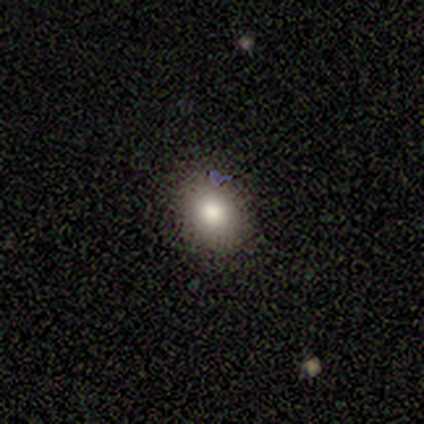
Smooth or featured: smooth — 100%
How rounded: round — 60% (in between — 40%)
Merging: none — 80% (minor disturbance — 20%)